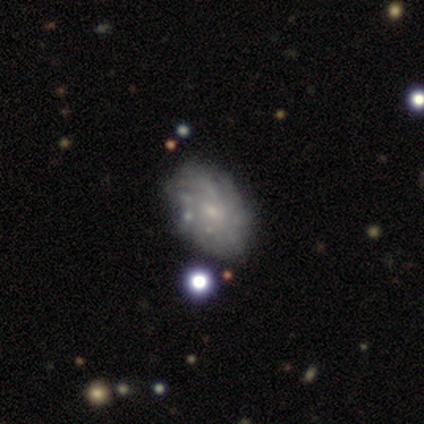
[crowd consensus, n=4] Morphology: type=featured or disk (50%); edge-on=no (100%); bar=no (100%); spiral arms=yes (100%); winding=tight (100%); arm count=4 (50%, tied with can't tell); bulge=small (100%); merging=none (67%).